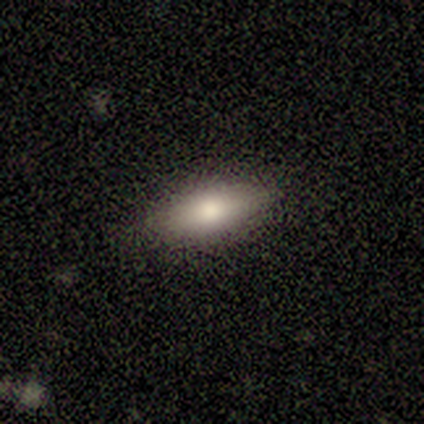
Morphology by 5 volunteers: smooth 40% (tied), featured or disk 40% (tied), star or artifact 20%. Down the decision tree: how rounded — in between (50%, tied with cigar-shaped); merging — none (100%).